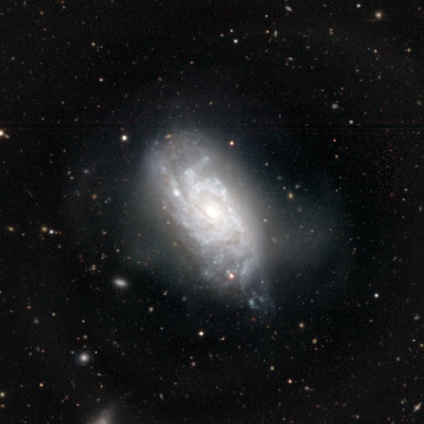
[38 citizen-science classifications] Q: Smooth or featured?
A: featured or disk (97%); runner-up: smooth (3%)
Q: Edge-on disk?
A: no (100%)
Q: Bar?
A: no (70%); runner-up: weak (22%)
Q: Spiral arms?
A: yes (97%); runner-up: no (3%)
Q: Spiral winding?
A: tight (78%); runner-up: medium (17%)
Q: Spiral arm count?
A: more than 4 (42%); tied with: can't tell (42%)
Q: Bulge size?
A: moderate (70%); runner-up: large (19%)
Q: Merging?
A: minor disturbance (26%); runner-up: none (24%)